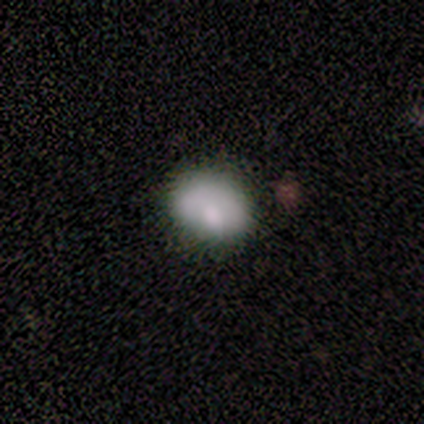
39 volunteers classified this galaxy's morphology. Smooth or featured? smooth (74%)
How rounded? round (62%)
Merging? none (74%)